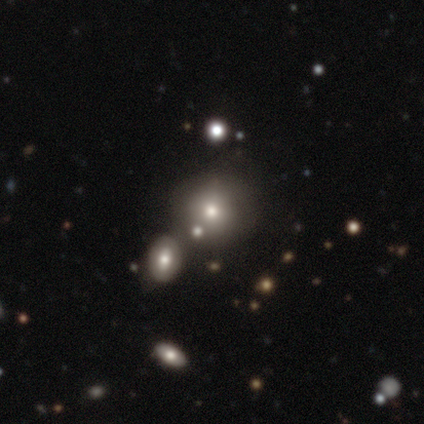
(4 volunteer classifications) A smooth galaxy with no disk features (75%) that is round (67%). Merging: none (67%).